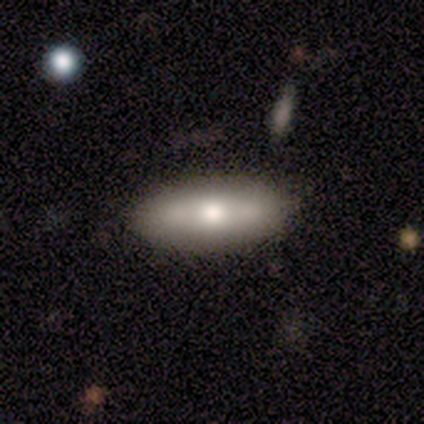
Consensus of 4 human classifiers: Smooth or featured? smooth (50%, tied with featured or disk)
How rounded? in between (100%)
Merging? none (100%)